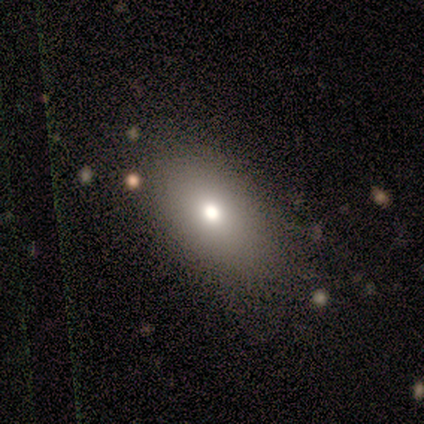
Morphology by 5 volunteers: smooth_or_featured: smooth (p=0.80) [alt: featured or disk p=0.20]
how_rounded: in between (p=1.00)
merging: none (p=1.00)